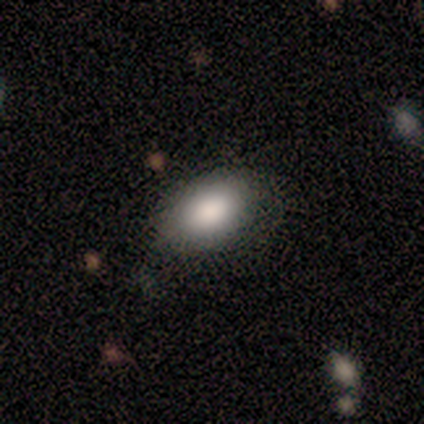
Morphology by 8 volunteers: Smooth or featured?
  - smooth: 88% *
  - star or artifact: 12%
  - featured or disk: 0%
How rounded?
  - in between: 100% *
  - round: 0%
  - cigar-shaped: 0%
Merging?
  - none: 57% *
  - minor disturbance: 43%
  - major disturbance: 0%
  - merger: 0%